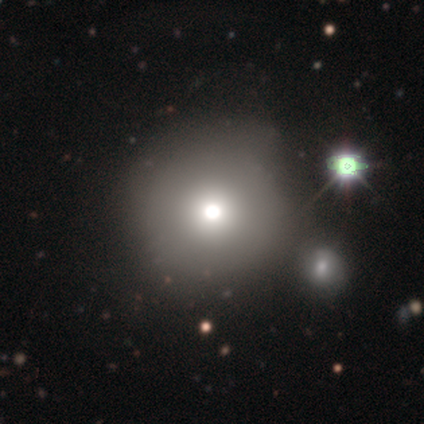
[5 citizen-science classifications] smooth 60%, star or artifact 40%, featured or disk 0%. Down the decision tree: how rounded — round (100%); merging — none (67%).